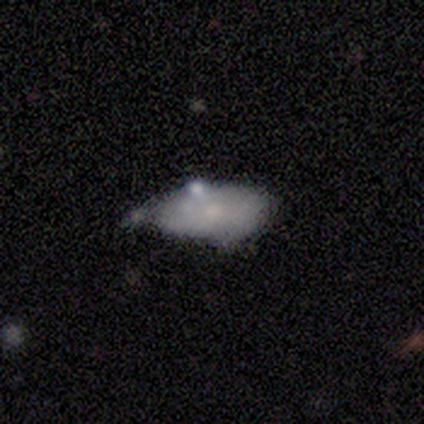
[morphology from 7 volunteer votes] A smooth galaxy with no disk features (57%) that is in between round and cigar-shaped (100%).

Vote fractions:
- Smooth or featured? smooth: 57% / featured or disk: 43% / star or artifact: 0%
- How rounded? in between: 100% / round: 0% / cigar-shaped: 0%
- Merging? minor disturbance: 57% / merger: 29% / none: 14% / major disturbance: 0%